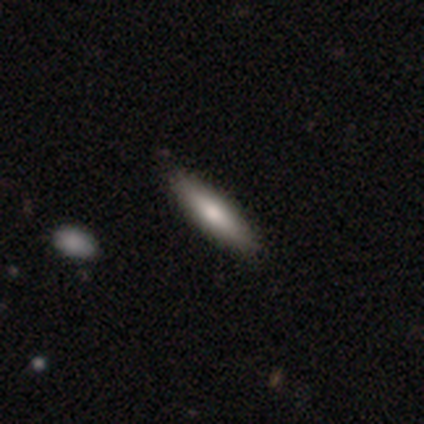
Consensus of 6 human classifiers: Smooth or featured? smooth (67%)
How rounded? cigar-shaped (75%)
Merging? none (67%)